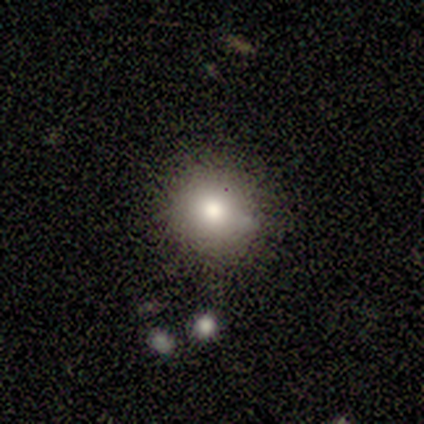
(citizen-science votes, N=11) Q: Smooth or featured?
A: smooth (91%); runner-up: featured or disk (9%)
Q: How rounded?
A: round (90%); runner-up: in between (10%)
Q: Merging?
A: none (91%); runner-up: minor disturbance (9%)